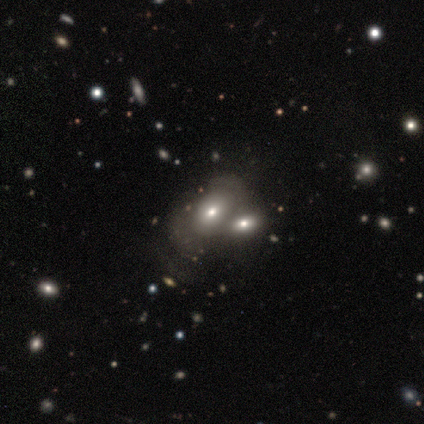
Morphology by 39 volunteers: This is likely a smooth galaxy (64%). How rounded: clearly in between (80%). Merging: possibly merger (57%).